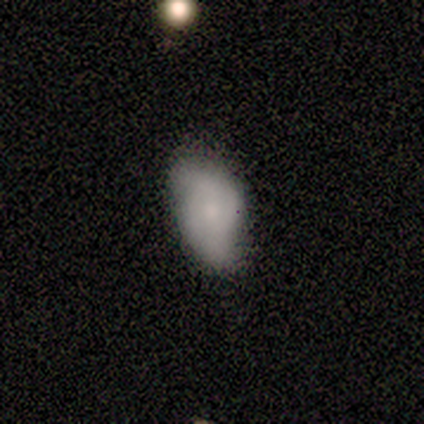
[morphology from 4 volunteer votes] Overall: smooth (75%). How rounded: in between (100%). Merging: none (67%; merger 33%).